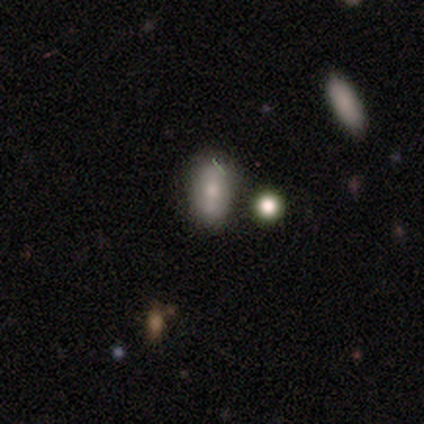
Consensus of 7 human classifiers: Smooth or featured?
  - smooth: 57% *
  - featured or disk: 43%
  - star or artifact: 0%
How rounded?
  - in between: 100% *
  - round: 0%
  - cigar-shaped: 0%
Merging?
  - none: 71% *
  - major disturbance: 14%
  - merger: 14%
  - minor disturbance: 0%